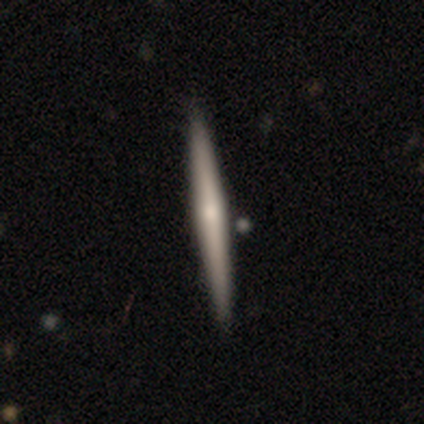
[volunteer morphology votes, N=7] A smooth galaxy with no disk features (57%) that is cigar-shaped (100%).

Vote fractions:
- Smooth or featured? smooth: 57% / featured or disk: 43% / star or artifact: 0%
- How rounded? cigar-shaped: 100% / round: 0% / in between: 0%
- Merging? none: 100% / minor disturbance: 0% / major disturbance: 0% / merger: 0%